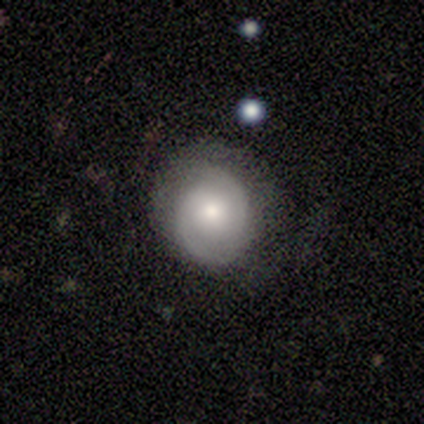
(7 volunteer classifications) A featured or disk galaxy (57%) with a weak bar (75%), 2 (100%) tight (50%, tied with medium) spiral arms (100%) and a small central bulge (75%).

Vote fractions:
- Smooth or featured? featured or disk: 57% / smooth: 43% / star or artifact: 0%
- Edge-on disk? no: 100% / yes: 0%
- Bar? weak: 75% / no: 25% / strong: 0%
- Spiral arms? yes: 100% / no: 0%
- Spiral winding? tight: 50% (tied) / medium: 50% (tied) / loose: 0%
- Spiral arm count? 2: 100% / 1: 0% / 3: 0% / 4: 0% / more than 4: 0% / can't tell: 0%
- Bulge size? small: 75% / none: 25% / dominant: 0% / large: 0% / moderate: 0%
- Merging? none: 71% / minor disturbance: 14% / major disturbance: 14% / merger: 0%